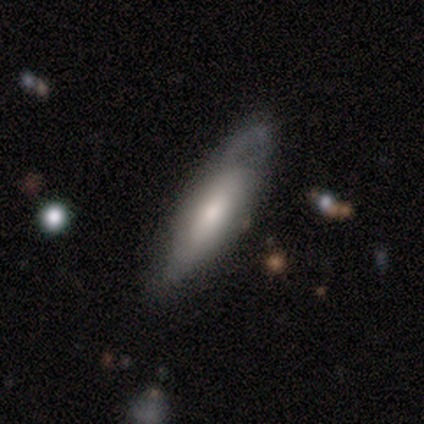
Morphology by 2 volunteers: A featured or disk galaxy (100%) viewed edge-on (50%, tied with no) with a rounded central bulge (100%). Merging: none (50%, tied with major disturbance).